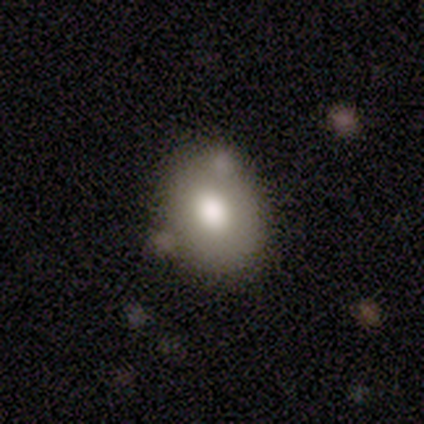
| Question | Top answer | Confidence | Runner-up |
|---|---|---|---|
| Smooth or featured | smooth | 80% | star or artifact (20%) |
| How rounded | round | 50% | tied: in between (50%) |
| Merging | none | 50% | tied: minor disturbance (50%) |